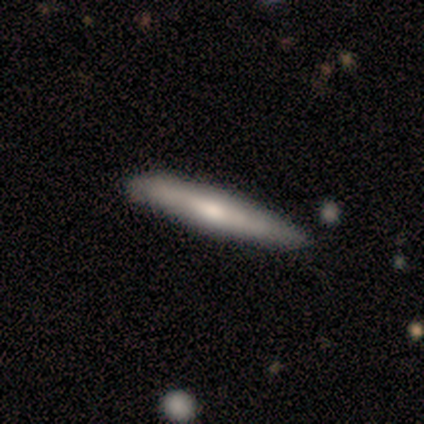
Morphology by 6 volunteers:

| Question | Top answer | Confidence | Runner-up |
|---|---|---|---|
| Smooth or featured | smooth | 83% | featured or disk (17%) |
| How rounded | cigar-shaped | 80% | round (20%) |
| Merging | none | 100% | — |